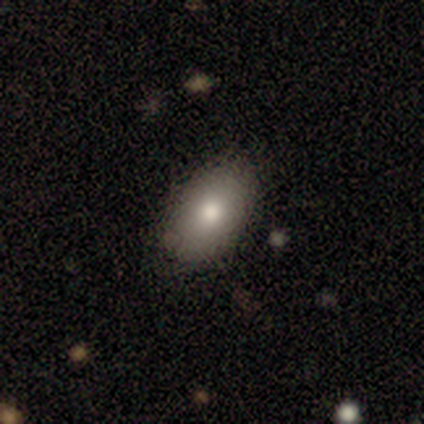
Smooth or featured? smooth (60%)
How rounded? in between (100%)
Merging? none (80%)